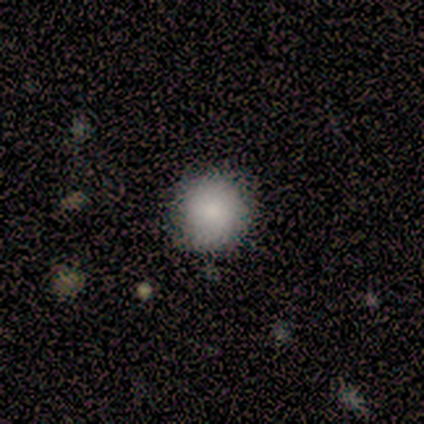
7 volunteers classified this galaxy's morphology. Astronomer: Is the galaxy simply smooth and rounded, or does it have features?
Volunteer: smooth — 100%.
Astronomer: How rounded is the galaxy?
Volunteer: round — 86%.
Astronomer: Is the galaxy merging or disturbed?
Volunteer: none — 71%.